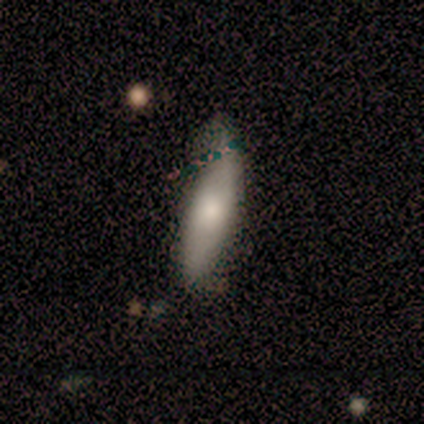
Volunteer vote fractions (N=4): This appears to be a smooth galaxy with no disk features (75%) that is cigar-shaped (100%). Merging: minor disturbance (75%).